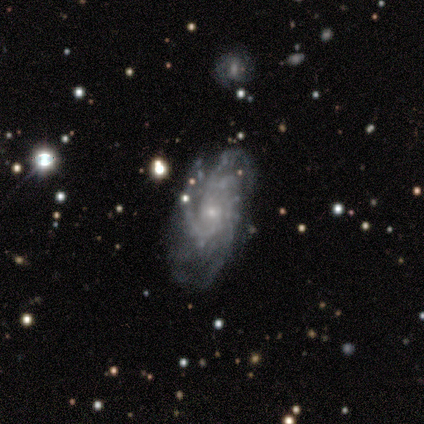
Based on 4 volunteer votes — featured or disk 75%, smooth 25%, star or artifact 0%. Down the decision tree: edge-on disk — no (100%); bar — no (100%); spiral arms — yes (100%); spiral arm count — more than 4 (67%); spiral winding — medium (67%); bulge size — small (67%); merging — minor disturbance (50%).